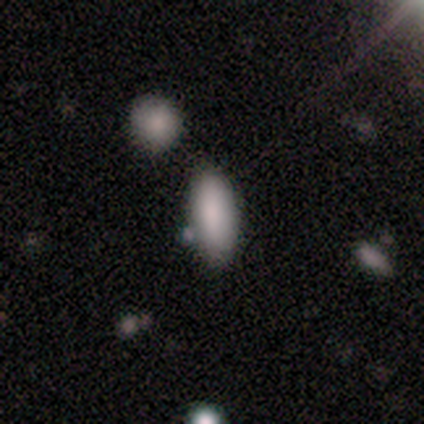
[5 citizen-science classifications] A smooth galaxy with no disk features (100%) that is in between round and cigar-shaped (60%).

Vote fractions:
- Smooth or featured? smooth: 100% / featured or disk: 0% / star or artifact: 0%
- How rounded? in between: 60% / cigar-shaped: 40% / round: 0%
- Merging? none: 80% / minor disturbance: 20% / major disturbance: 0% / merger: 0%